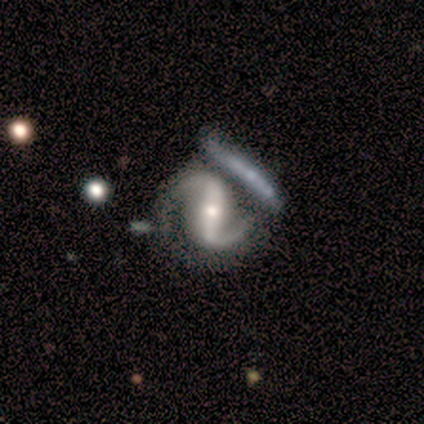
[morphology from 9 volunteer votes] This is likely a featured or disk galaxy (78%). It is clearly not viewed edge-on (100%). Bar: clearly strong (86%). Spiral arm pattern: clearly yes (100%). Spiral arm count: clearly 2 (100%). Spiral winding: possibly loose (57%). Central bulge: likely small (71%). Merging: likely none (75%).